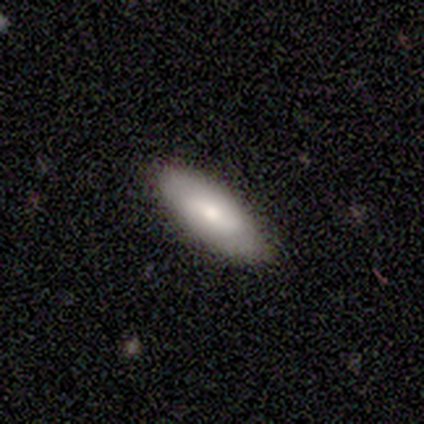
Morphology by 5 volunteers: Smooth or featured: smooth — 80% (featured or disk — 20%)
How rounded: in between — 100%
Merging: none — 100%